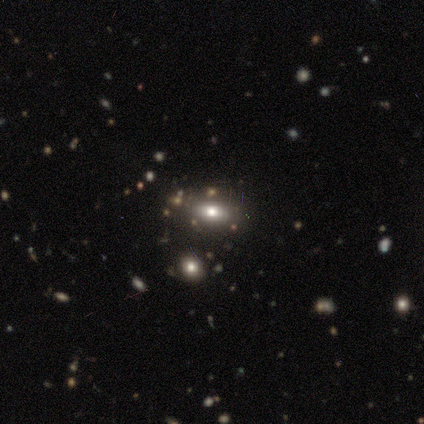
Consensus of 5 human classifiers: Volunteers were most divided on "smooth or featured": smooth: 60%, star or artifact: 40%, featured or disk: 0%. More confident: how rounded — in between (100%); merging — none (67%).